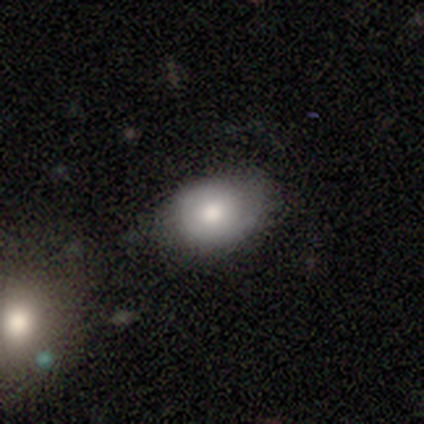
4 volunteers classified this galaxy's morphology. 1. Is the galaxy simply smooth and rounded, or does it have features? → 75% smooth, 25% featured or disk, 0% star or artifact.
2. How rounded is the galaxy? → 67% in between, 33% round, 0% cigar-shaped.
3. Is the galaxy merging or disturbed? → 75% none, 25% minor disturbance, 0% major disturbance, 0% merger.